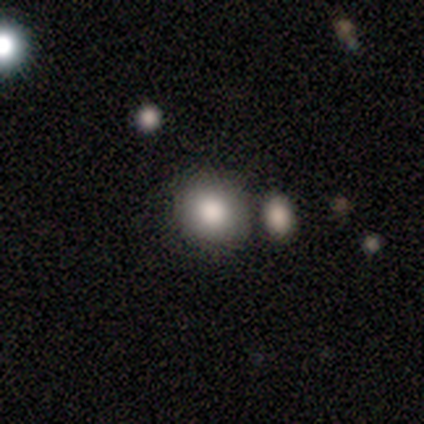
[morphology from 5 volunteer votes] This appears to be a smooth galaxy with no disk features (80%) that is round (100%). Merging: none (40%, tied with minor disturbance).